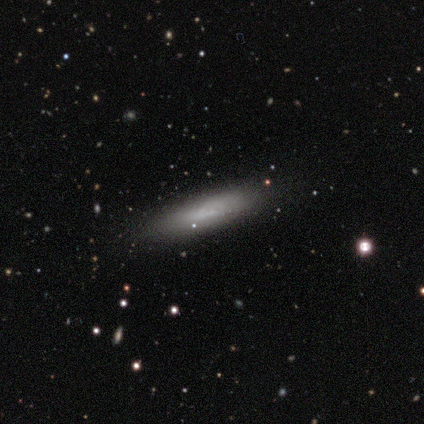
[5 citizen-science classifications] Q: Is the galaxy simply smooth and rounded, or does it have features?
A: featured or disk — 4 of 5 (80%).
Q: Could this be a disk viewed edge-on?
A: yes — 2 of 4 (50%, tied with no).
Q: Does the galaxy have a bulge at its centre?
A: none — 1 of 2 (50%, tied with rounded).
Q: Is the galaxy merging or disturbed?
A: minor disturbance — 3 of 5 (60%).